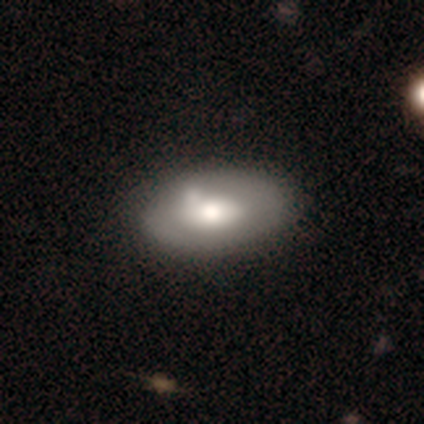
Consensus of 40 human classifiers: Morphology: type=smooth (65%); roundness=in between (88%); merging=none (42%).